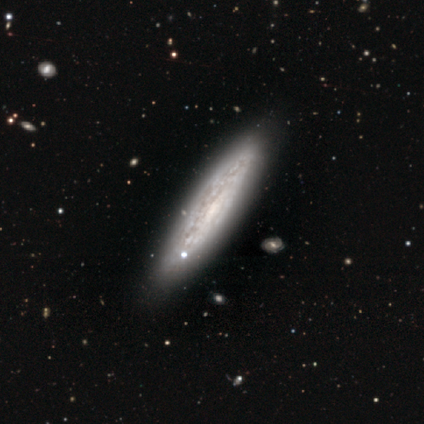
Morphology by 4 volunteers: smooth-or-featured: featured or disk: 75% | smooth: 25% | star or artifact: 0%
  disk-edge-on: yes: 100% | no: 0%
    edge-on-bulge: none: 100% | boxy: 0% | rounded: 0%
  merging: none: 75% | minor disturbance: 25% | major disturbance: 0% | merger: 0%